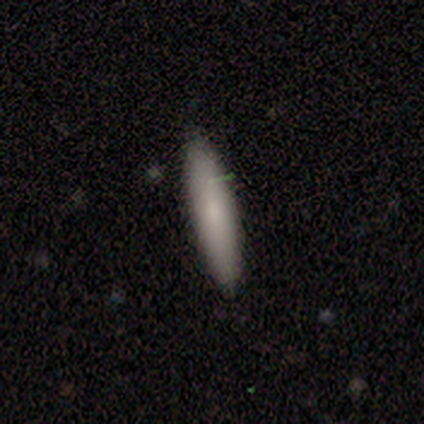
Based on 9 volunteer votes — Smooth or featured? smooth (78%)
How rounded? cigar-shaped (100%)
Merging? none (100%)